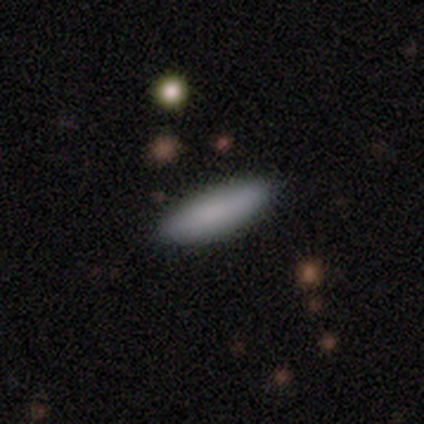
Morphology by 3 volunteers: Volunteers were most divided on "how rounded": in between: 67%, cigar-shaped: 33%, round: 0%. More confident: smooth or featured — smooth (100%); merging — none (100%).